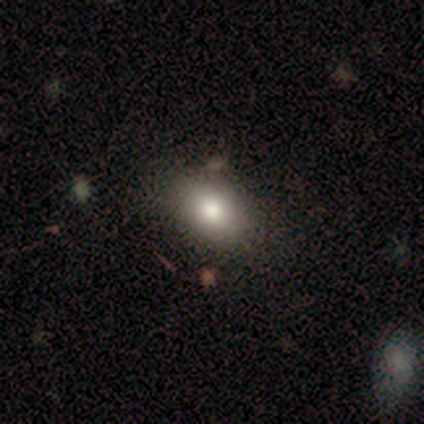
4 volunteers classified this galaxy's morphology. Q: Smooth or featured?
A: smooth (100%)
Q: How rounded?
A: in between (75%); runner-up: round (25%)
Q: Merging?
A: none (100%)